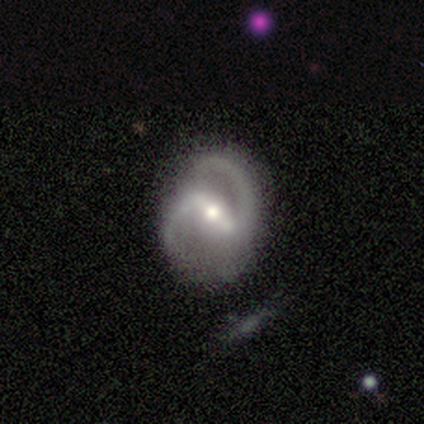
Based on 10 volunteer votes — smooth_or_featured: featured or disk (p=0.90) [alt: smooth p=0.10]
disk_edge_on: no (p=1.00)
bar: strong (p=0.78) [alt: weak p=0.22]
has_spiral_arms: yes (p=1.00)
spiral_winding: medium (p=0.56) [alt: tight p=0.22]
spiral_arm_count: 2 (p=1.00)
bulge_size: moderate (p=0.78) [alt: large p=0.11]
merging: none (p=0.50) [alt: minor disturbance p=0.30]